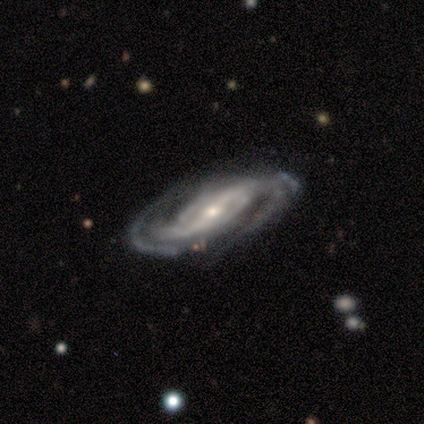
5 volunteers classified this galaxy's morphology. This is clearly a featured or disk galaxy (80%). It is clearly not viewed edge-on (100%). Bar: possibly strong (50%, tied with weak). Spiral arm pattern: clearly yes (100%). Spiral arm count: likely 2 (75%). Spiral winding: possibly tight (50%, tied with medium). Central bulge: likely small (75%). Merging: possibly none (50%, tied with minor disturbance).